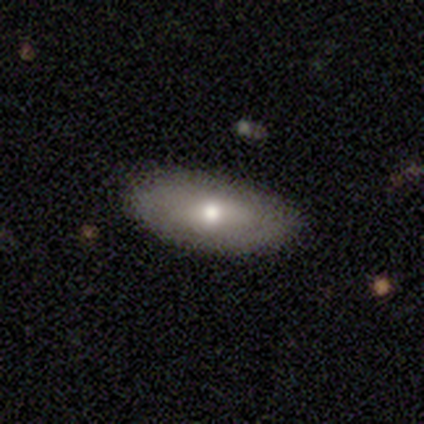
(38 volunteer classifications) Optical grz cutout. It shows a smooth galaxy with no disk features (68%) that is in between round and cigar-shaped (73%). Merging: none (77%).